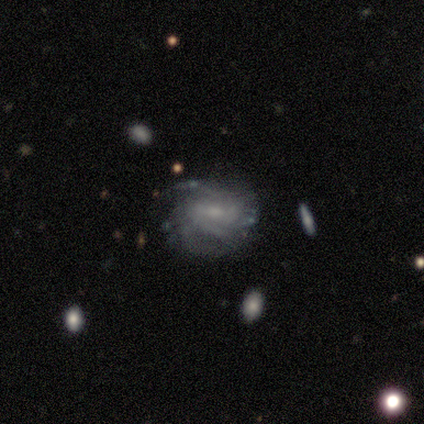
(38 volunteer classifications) A featured or disk galaxy (92%) with a weak bar (61%), tight (50%) spiral arms (91%) and a small central bulge (58%).

Vote fractions:
- Smooth or featured? featured or disk: 92% / smooth: 8% / star or artifact: 0%
- Edge-on disk? no: 94% / yes: 6%
- Bar? weak: 61% / no: 21% / strong: 18%
- Spiral arms? yes: 91% / no: 9%
- Spiral winding? tight: 50% / medium: 40% / loose: 10%
- Spiral arm count? can't tell: 60% / 2: 23% / 3: 13% / 1: 3% / 4: 0% / more than 4: 0%
- Bulge size? small: 58% / none: 27% / moderate: 15% / dominant: 0% / large: 0%
- Merging? none: 76% / minor disturbance: 18% / major disturbance: 3% / merger: 3%